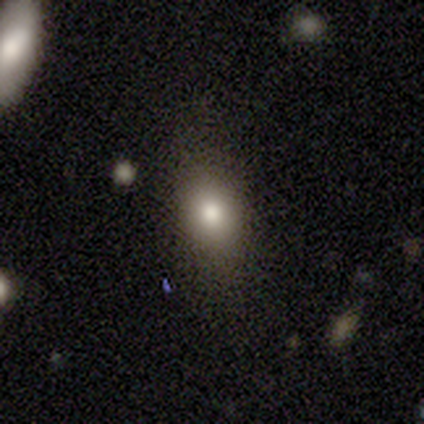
This appears to be a smooth galaxy with no disk features (60%) that is cigar-shaped (67%). Merging: minor disturbance (67%).